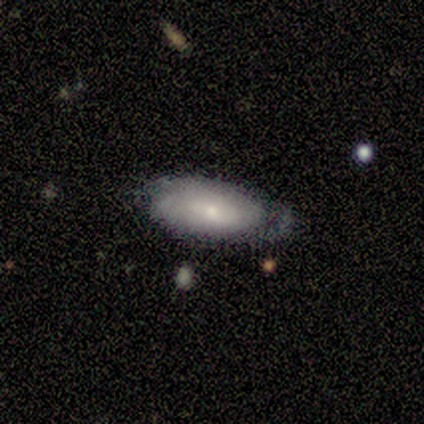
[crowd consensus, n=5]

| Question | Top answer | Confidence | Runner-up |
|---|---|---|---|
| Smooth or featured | smooth | 60% | featured or disk (40%) |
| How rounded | in between | 100% | — |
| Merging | none | 100% | — |